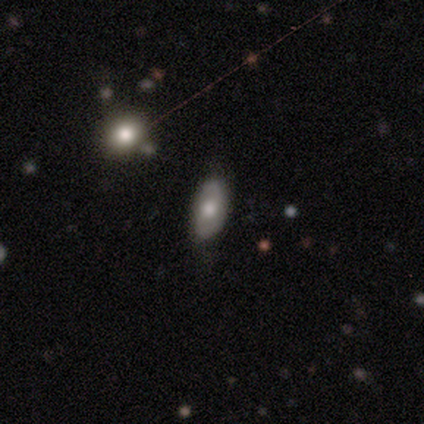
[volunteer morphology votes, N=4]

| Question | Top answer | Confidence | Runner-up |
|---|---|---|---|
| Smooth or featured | smooth | 75% | featured or disk (25%) |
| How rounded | in between | 100% | — |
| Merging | none | 75% | merger (25%) |